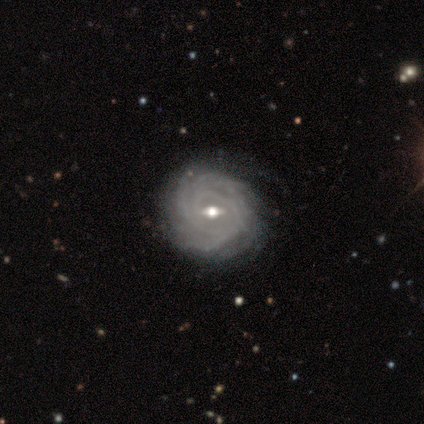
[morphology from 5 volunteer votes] featured or disk 80%, smooth 20%, star or artifact 0%. Down the decision tree: edge-on disk — no (100%); bar — weak (100%); spiral arms — yes (100%); spiral arm count — 3 (50%); spiral winding — tight (100%); bulge size — moderate (100%); merging — none (40%, tied with minor disturbance).